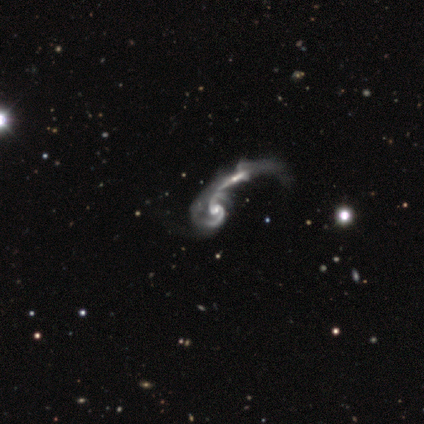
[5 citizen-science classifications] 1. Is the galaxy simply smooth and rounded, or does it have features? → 100% featured or disk, 0% smooth, 0% star or artifact.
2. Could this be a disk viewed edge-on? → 80% no, 20% yes.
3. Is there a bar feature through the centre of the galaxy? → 100% no, 0% strong, 0% weak.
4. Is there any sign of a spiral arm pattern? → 100% yes, 0% no.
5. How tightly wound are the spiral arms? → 75% medium, 25% loose, 0% tight.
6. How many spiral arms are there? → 100% 2, 0% 1, 0% 3, 0% 4, 0% more than 4, 0% can't tell.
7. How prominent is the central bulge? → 75% moderate, 25% small, 0% dominant, 0% large, 0% none.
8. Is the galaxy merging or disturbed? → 80% merger, 20% minor disturbance, 0% none, 0% major disturbance.